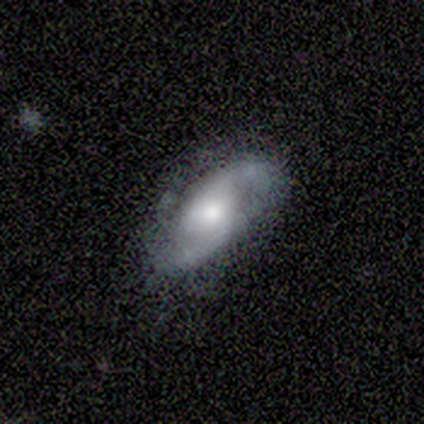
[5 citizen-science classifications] Morphology: type=featured or disk (80%); edge-on=no (75%); bar=no (100%); spiral arms=yes (67%); winding=tight (50%, tied with loose); arm count=2 (50%, tied with can't tell); bulge=moderate (67%); merging=none (60%).